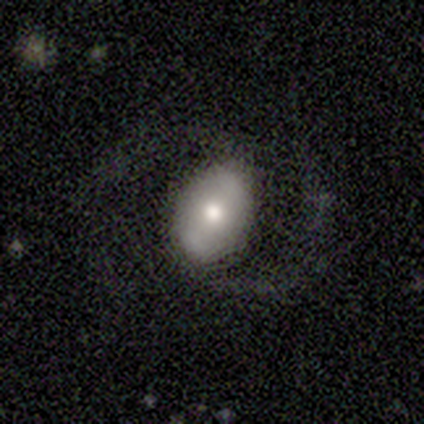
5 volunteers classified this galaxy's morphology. featured or disk 60%, smooth 40%, star or artifact 0%. Down the decision tree: edge-on disk — no (100%); bar — strong (33%, tied with weak and no); spiral arms — yes (100%); spiral arm count — 2 (100%); spiral winding — medium (67%); bulge size — small (67%); merging — none (60%).